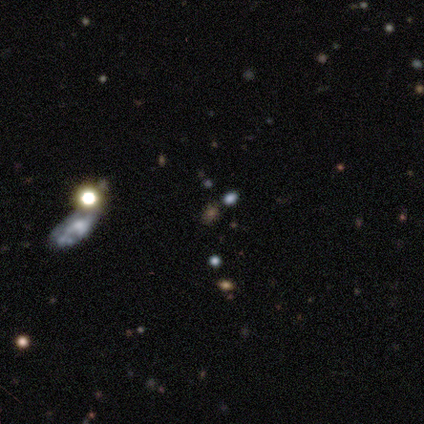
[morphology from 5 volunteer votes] Smooth or featured? 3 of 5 (60%) said star or artifact.